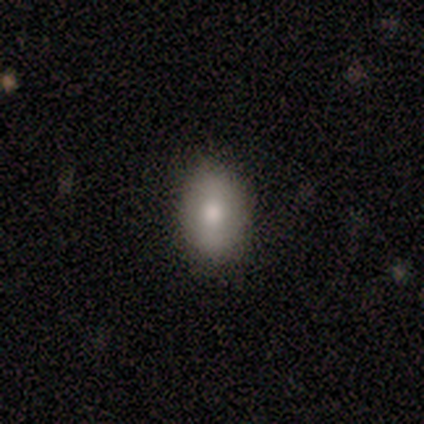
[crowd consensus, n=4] smooth_or_featured: smooth (p=0.75) [alt: featured or disk p=0.25]
how_rounded: in between (p=0.67) [alt: round p=0.33]
merging: none (p=1.00)